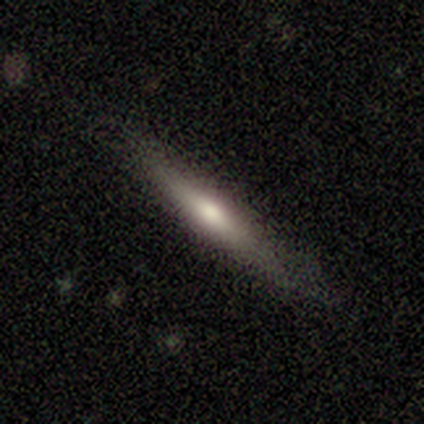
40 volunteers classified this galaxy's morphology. This appears to be a featured or disk galaxy (55%) viewed edge-on (91%) with a rounded central bulge (75%). Merging: none (78%).